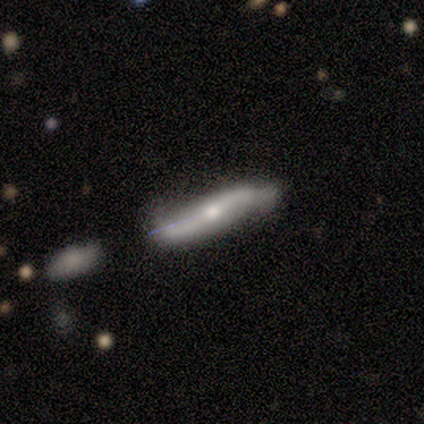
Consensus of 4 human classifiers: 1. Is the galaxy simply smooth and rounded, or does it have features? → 100% featured or disk, 0% smooth, 0% star or artifact.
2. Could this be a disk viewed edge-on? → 75% no, 25% yes.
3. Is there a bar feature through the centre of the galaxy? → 33% strong (tied), 33% weak (tied), 33% no (tied).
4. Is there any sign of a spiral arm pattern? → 67% yes, 33% no.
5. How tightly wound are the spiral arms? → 100% loose, 0% tight, 0% medium.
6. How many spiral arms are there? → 100% 2, 0% 1, 0% 3, 0% 4, 0% more than 4, 0% can't tell.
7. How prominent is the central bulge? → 67% small, 33% moderate, 0% dominant, 0% large, 0% none.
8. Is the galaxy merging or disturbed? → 50% none, 25% minor disturbance, 25% major disturbance, 0% merger.